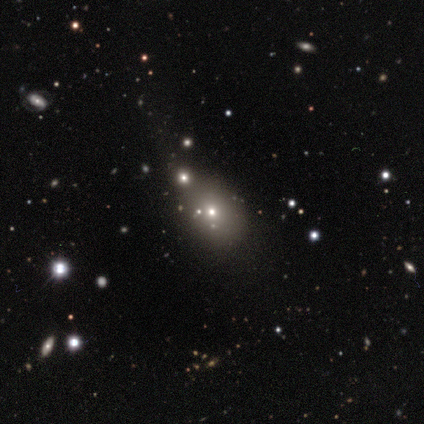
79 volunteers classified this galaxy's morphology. This appears to be a smooth galaxy with no disk features (59%) that is in between round and cigar-shaped (68%). Merging: none (60%).